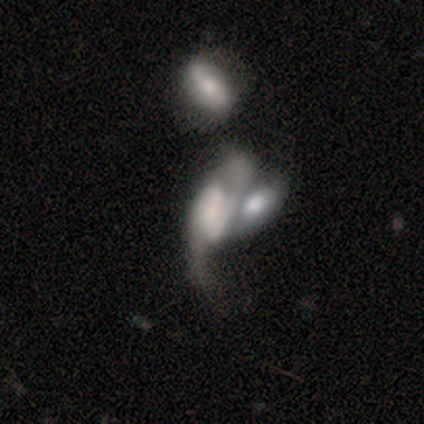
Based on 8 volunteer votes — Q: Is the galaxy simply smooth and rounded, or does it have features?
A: featured or disk — 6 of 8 (75%).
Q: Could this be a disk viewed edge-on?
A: no — 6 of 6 (100%).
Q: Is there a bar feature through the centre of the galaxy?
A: weak — 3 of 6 (50%).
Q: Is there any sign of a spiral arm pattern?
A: yes — 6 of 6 (100%).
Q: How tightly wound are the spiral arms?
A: loose — 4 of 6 (67%).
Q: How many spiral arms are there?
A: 2 — 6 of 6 (100%).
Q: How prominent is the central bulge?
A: large — 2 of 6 (33%, tied with small).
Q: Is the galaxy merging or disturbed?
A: merger — 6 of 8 (75%).